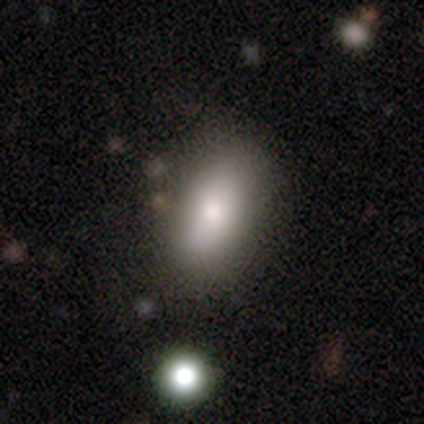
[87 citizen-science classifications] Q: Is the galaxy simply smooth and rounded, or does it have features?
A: smooth — 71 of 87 (82%).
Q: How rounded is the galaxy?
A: in between — 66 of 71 (93%).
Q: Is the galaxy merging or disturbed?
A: none — 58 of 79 (73%).